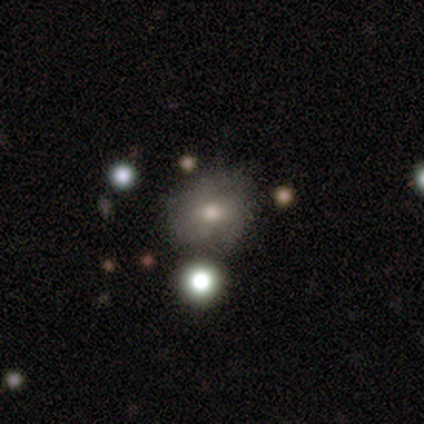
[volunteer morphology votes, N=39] Q: Smooth or featured?
A: smooth (64%); runner-up: featured or disk (31%)
Q: How rounded?
A: round (60%); runner-up: in between (40%)
Q: Merging?
A: none (49%); runner-up: minor disturbance (24%)